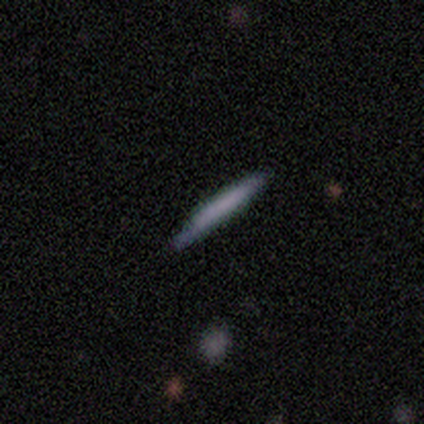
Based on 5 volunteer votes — Overall: smooth (80%). How rounded: cigar-shaped (100%). Merging: none (75%).